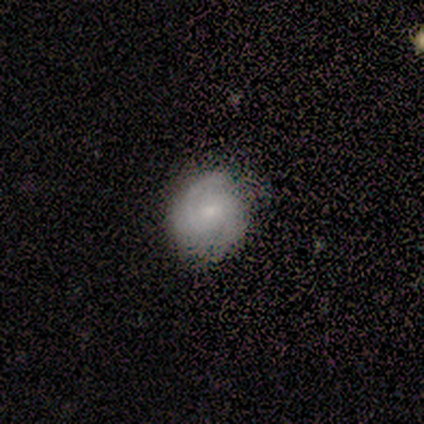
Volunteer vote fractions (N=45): A featured or disk galaxy (64%) with no bar (68%), 2 (60%) tight (80%) spiral arms (89%) and a small central bulge (64%).

Vote fractions:
- Smooth or featured? featured or disk: 64% / smooth: 27% / star or artifact: 9%
- Edge-on disk? no: 97% / yes: 3%
- Bar? no: 68% / weak: 32% / strong: 0%
- Spiral arms? yes: 89% / no: 11%
- Spiral winding? tight: 80% / medium: 16% / loose: 4%
- Spiral arm count? 2: 60% / can't tell: 28% / 1: 8% / 3: 4% / 4: 0% / more than 4: 0%
- Bulge size? small: 64% / moderate: 21% / dominant: 7% / none: 7% / large: 0%
- Merging? none: 68% / minor disturbance: 29% / major disturbance: 2% / merger: 0%